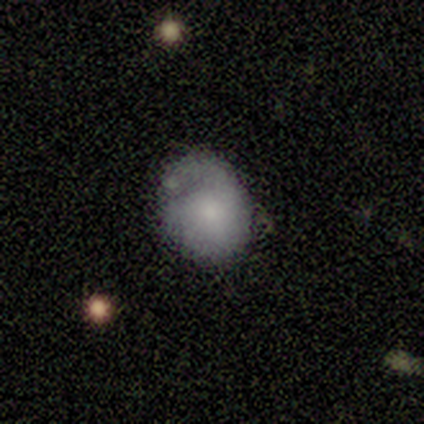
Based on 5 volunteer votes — Smooth or featured?
  - smooth: 80% *
  - star or artifact: 20%
  - featured or disk: 0%
How rounded?
  - round: 75% *
  - in between: 25%
  - cigar-shaped: 0%
Merging?
  - none: 50% * (tied)
  - minor disturbance: 50% * (tied)
  - major disturbance: 0%
  - merger: 0%